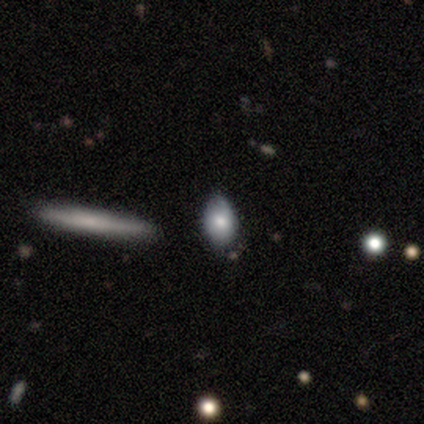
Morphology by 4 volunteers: Smooth or featured? smooth (100%)
How rounded? round (50%, tied with in between)
Merging? none (75%)